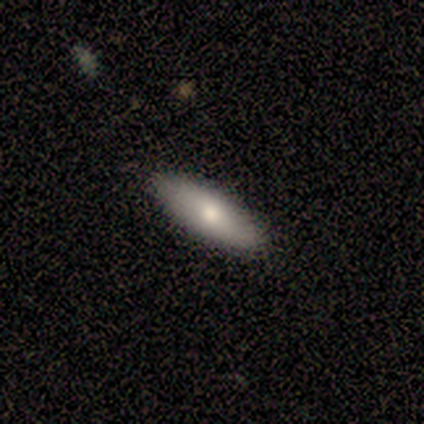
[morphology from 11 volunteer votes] Smooth or featured? smooth (64%)
How rounded? cigar-shaped (57%)
Merging? none (80%)